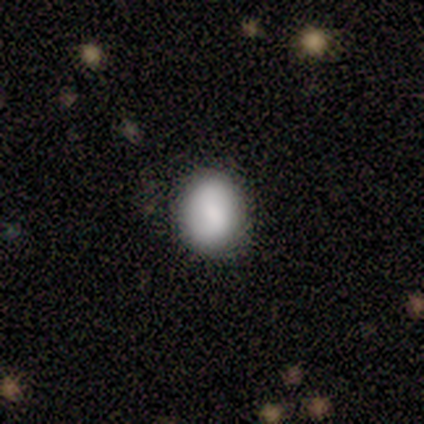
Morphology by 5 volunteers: This appears to be a smooth galaxy with no disk features (80%) that is round (100%). Merging: none (80%).